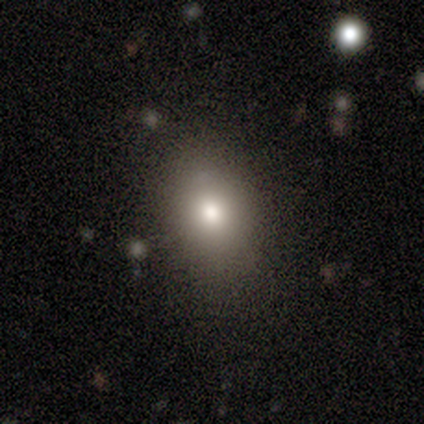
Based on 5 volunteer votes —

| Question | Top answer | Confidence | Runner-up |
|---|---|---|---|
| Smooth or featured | smooth | 80% | featured or disk (20%) |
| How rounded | round | 50% | tied: in between (50%) |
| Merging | none | 100% | — |